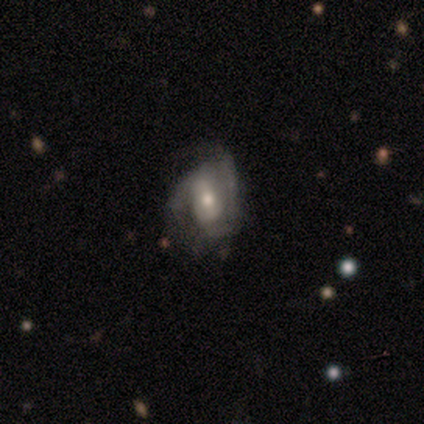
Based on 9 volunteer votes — A featured or disk galaxy (100%) with a strong bar (44%), 2 (62%) medium (50%) spiral arms (89%) and a moderate central bulge (67%). Merging: minor disturbance (67%).